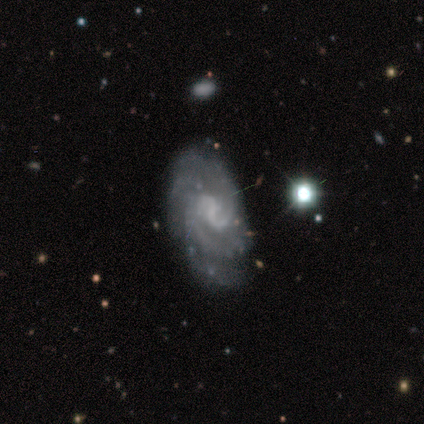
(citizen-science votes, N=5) Morphology: type=featured or disk (100%); edge-on=no (100%); bar=no (60%); spiral arms=yes (100%); winding=medium (60%); arm count=can't tell (40%); bulge=none (80%); merging=none (40%, tied with minor disturbance).